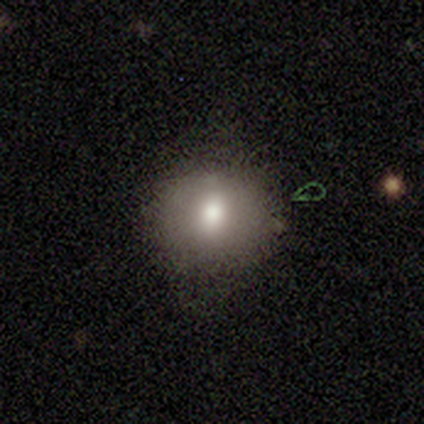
Smooth or featured? smooth (91%)
How rounded? round (100%)
Merging? none (73%)